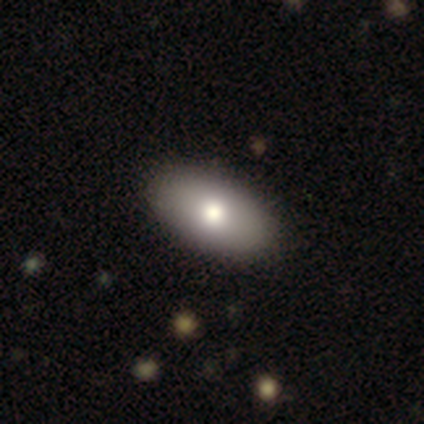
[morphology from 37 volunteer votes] Smooth or featured?
  - smooth: 76% *
  - featured or disk: 22%
  - star or artifact: 3%
How rounded?
  - in between: 93% *
  - round: 7%
  - cigar-shaped: 0%
Merging?
  - none: 61% *
  - minor disturbance: 3%
  - merger: 3%
  - major disturbance: 0%